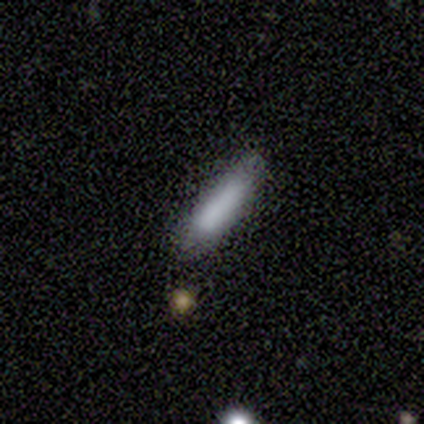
smooth 40% (tied), star or artifact 40% (tied), featured or disk 20%. Down the decision tree: how rounded — in between (50%, tied with cigar-shaped); merging — none (33%, tied with minor disturbance and merger).